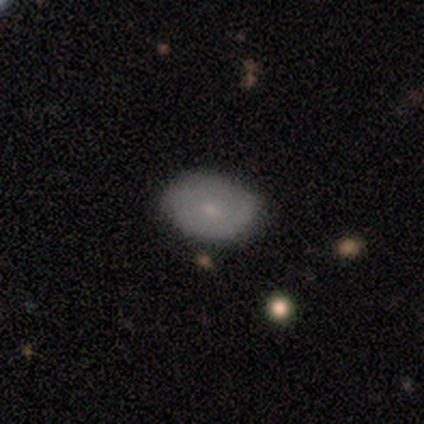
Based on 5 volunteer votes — Overall: smooth (60%; featured or disk 40%). How rounded: in between (100%). Merging: none (80%).